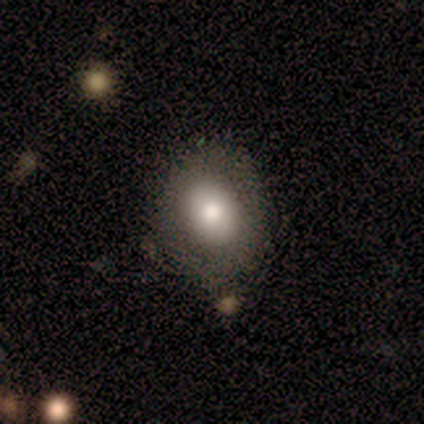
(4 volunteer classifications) This appears to be a smooth galaxy with no disk features (50%) that is round (50%, tied with in between). Merging: none (100%).